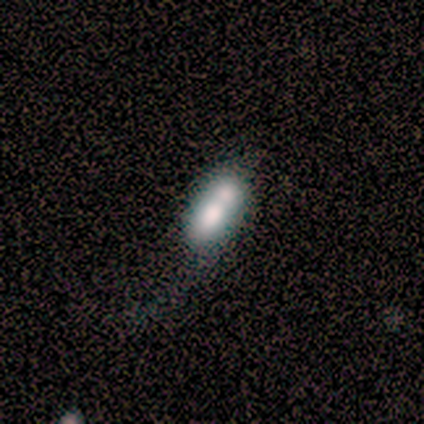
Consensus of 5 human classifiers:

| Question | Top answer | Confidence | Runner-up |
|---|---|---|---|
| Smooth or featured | smooth | 40% | tied: star or artifact (40%) |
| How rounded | in between | 100% | — |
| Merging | none | 67% | merger (33%) |